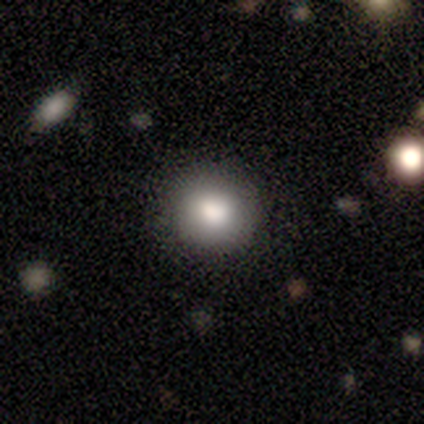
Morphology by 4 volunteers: Overall: smooth (100%). How rounded: round (100%). Merging: none (100%).